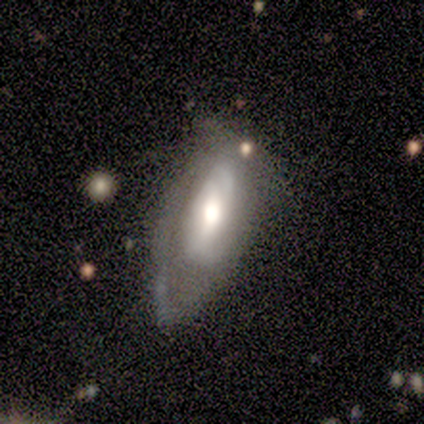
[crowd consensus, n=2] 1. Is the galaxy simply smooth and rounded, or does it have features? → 50% smooth (tied), 50% featured or disk (tied), 0% star or artifact.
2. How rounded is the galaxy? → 100% in between, 0% round, 0% cigar-shaped.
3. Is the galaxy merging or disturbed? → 100% none, 0% minor disturbance, 0% major disturbance, 0% merger.